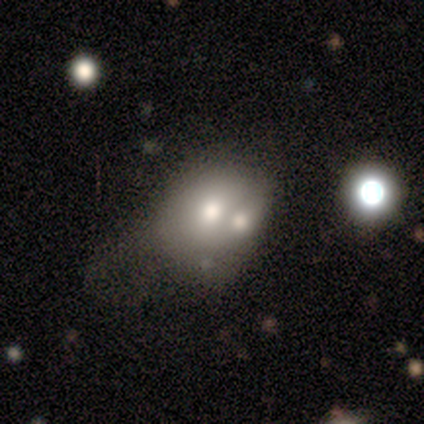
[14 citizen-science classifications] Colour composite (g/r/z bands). It shows a smooth galaxy with no disk features (50%) that is round (71%). Merging: merger (62%).